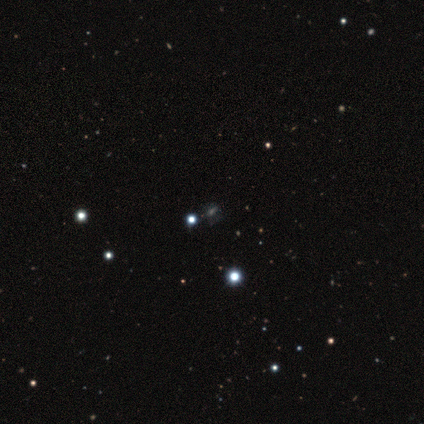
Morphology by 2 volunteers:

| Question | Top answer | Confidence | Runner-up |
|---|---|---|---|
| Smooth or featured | smooth | 100% | — |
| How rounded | round | 100% | — |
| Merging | none | 50% | tied: merger (50%) |